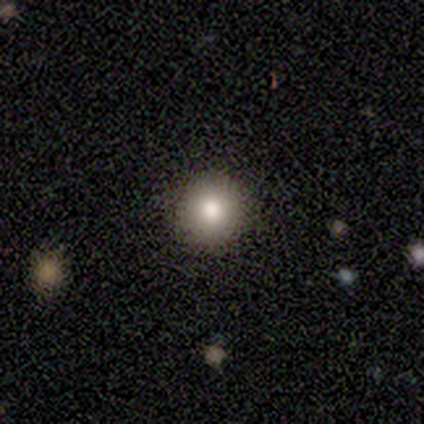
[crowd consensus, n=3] Consensus on every question: smooth or featured — smooth (100%); how rounded — round (100%); merging — none (100%).